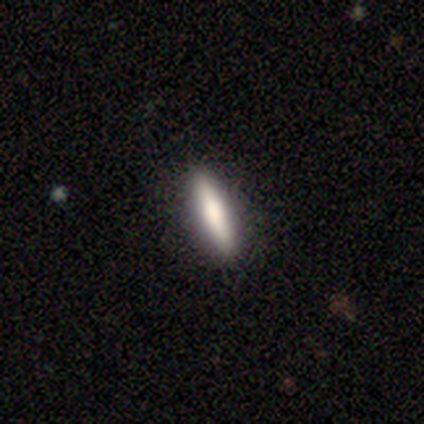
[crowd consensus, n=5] Volunteers were most divided on "how rounded": cigar-shaped: 75%, in between: 25%, round: 0%. More confident: merging — none (100%); smooth or featured — smooth (80%).